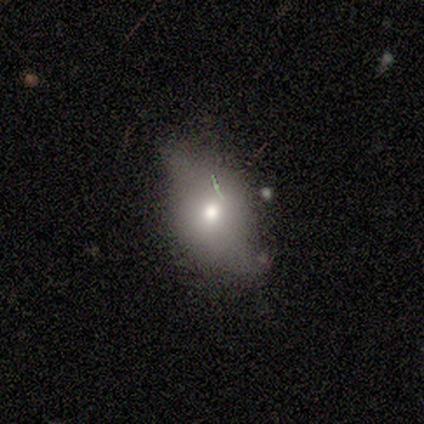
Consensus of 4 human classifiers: smooth-or-featured: smooth: 50% (tied) | star or artifact: 50% (tied) | featured or disk: 0%
  how-rounded: round: 50% (tied) | in between: 50% (tied) | cigar-shaped: 0%
  merging: none: 100% | minor disturbance: 0% | major disturbance: 0% | merger: 0%